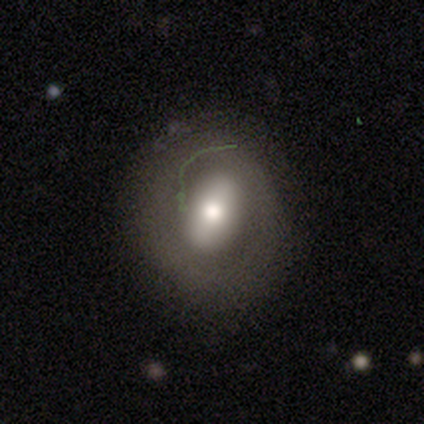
This appears to be a smooth galaxy with no disk features (43%, tied with featured or disk) that is round (67%). Merging: none (67%).